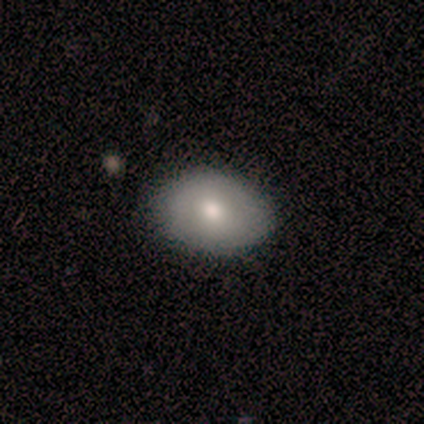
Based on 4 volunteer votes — Smooth or featured? 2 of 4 (50%, tied with featured or disk) said smooth. How rounded? 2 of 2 (100%) said in between. Merging? 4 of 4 (100%) said none.